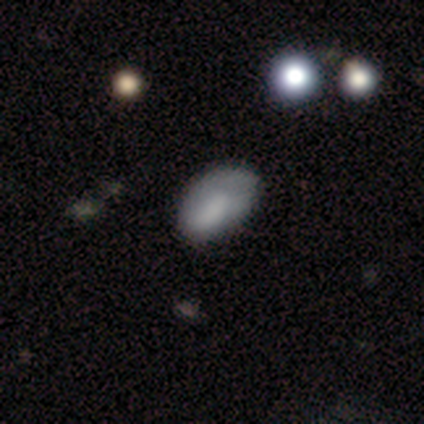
smooth_or_featured: smooth (p=0.60) [alt: featured or disk p=0.40]
how_rounded: in between (p=1.00)
merging: minor disturbance (p=0.60) [alt: none p=0.40]